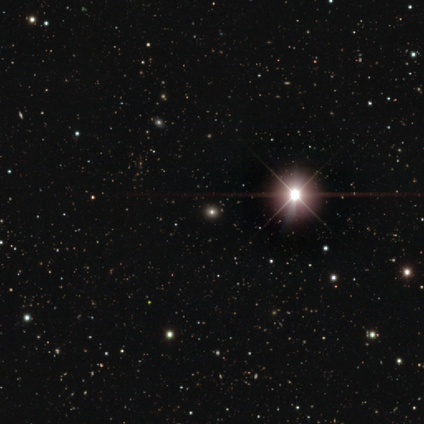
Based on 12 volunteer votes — Overall: star or artifact (50%; smooth 33%).